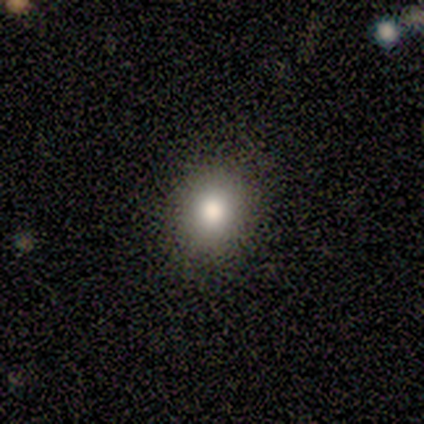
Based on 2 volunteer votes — Consensus on every question: smooth or featured — smooth (100%); how rounded — round (100%); merging — none (100%).